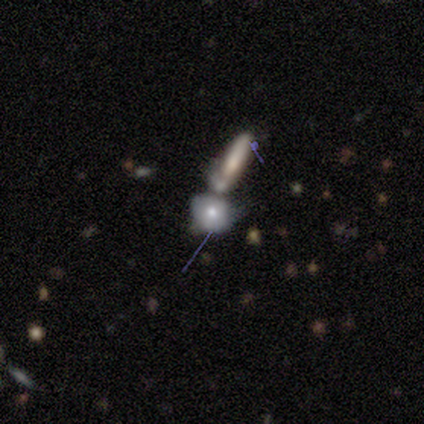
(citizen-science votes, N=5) Morphology: type=smooth (40%, tied with star or artifact); roundness=in between (50%, tied with cigar-shaped); merging=merger (100%).